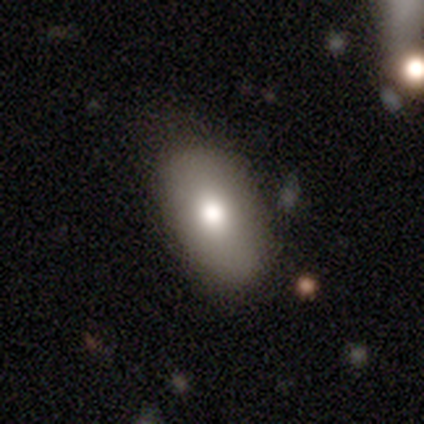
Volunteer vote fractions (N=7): This is likely a smooth galaxy (71%). How rounded: clearly in between (80%). Merging: clearly none (86%).